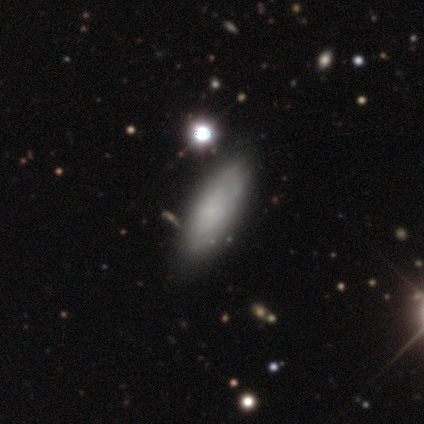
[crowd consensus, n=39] Smooth or featured? 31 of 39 (79%) said smooth. How rounded? 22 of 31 (71%) said in between. Merging? 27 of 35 (77%) said none.